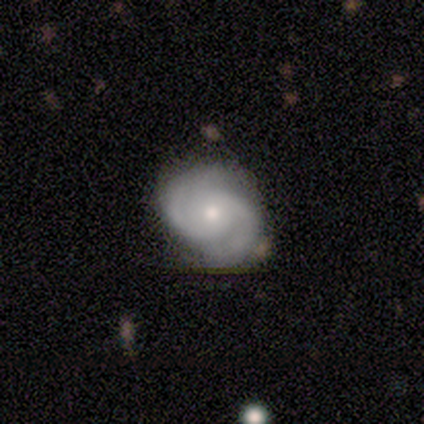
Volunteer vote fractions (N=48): Smooth or featured? featured or disk (81%)
Edge-on disk? no (97%)
Bar? no (68%)
Spiral arms? yes (97%)
Spiral winding? medium (57%)
Spiral arm count? 2 (86%)
Bulge size? moderate (68%)
Merging? none (59%)